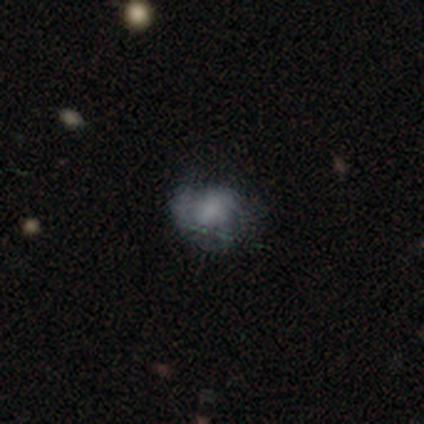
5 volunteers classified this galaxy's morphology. type=smooth (60%); roundness=in between (67%); merging=minor disturbance (60%).